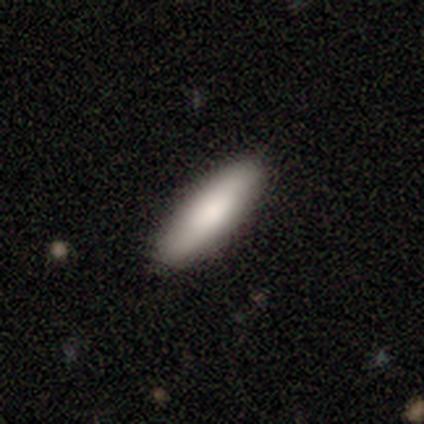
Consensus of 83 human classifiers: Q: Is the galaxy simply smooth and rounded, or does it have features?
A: smooth — 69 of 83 (83%).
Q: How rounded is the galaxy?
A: cigar-shaped — 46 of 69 (67%).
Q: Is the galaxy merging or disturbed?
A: none — 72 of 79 (91%).